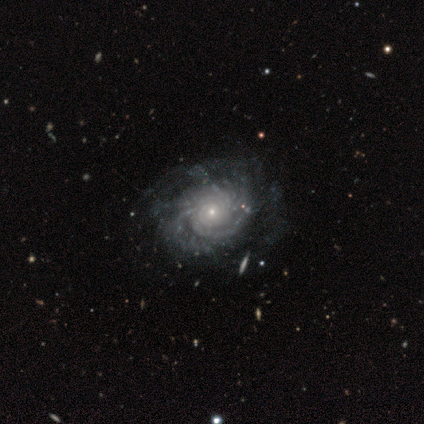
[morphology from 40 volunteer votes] Smooth or featured?
  - featured or disk: 98% *
  - smooth: 2%
  - star or artifact: 0%
Edge-on disk?
  - no: 97% *
  - yes: 3%
Bar?
  - no: 95% *
  - weak: 5%
  - strong: 0%
Spiral arms?
  - yes: 100% *
  - no: 0%
Spiral winding?
  - tight: 53% *
  - medium: 37%
  - loose: 11%
Spiral arm count?
  - can't tell: 53% *
  - more than 4: 26%
  - 2: 8%
  - 3: 8%
  - 4: 5%
  - 1: 0%
Bulge size?
  - small: 79% *
  - moderate: 11%
  - large: 5%
  - none: 5%
  - dominant: 0%
Merging?
  - none: 48% *
  - minor disturbance: 15%
  - major disturbance: 10%
  - merger: 0%